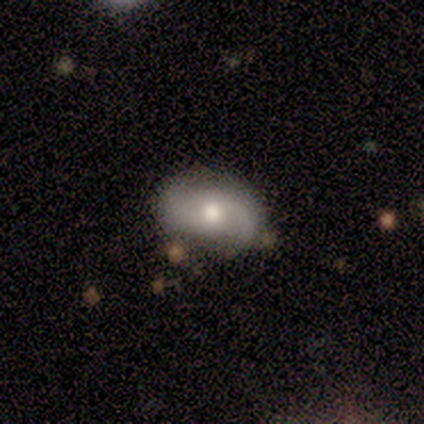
Overall: featured or disk (57%; smooth 43%). Edge-on disk: no (100%). Bar: weak (50%, tied with no). Spiral arms: yes (100%). Spiral arm count: 2 (75%). Spiral winding: medium (75%). Bulge size: moderate (75%). Merging: none (57%).